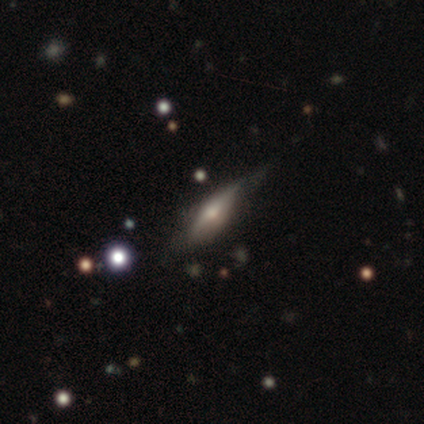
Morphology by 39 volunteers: Smooth or featured?
  - featured or disk: 51% *
  - smooth: 41%
  - star or artifact: 8%
Edge-on disk?
  - yes: 85% *
  - no: 15%
Edge-on bulge?
  - rounded: 76% *
  - boxy: 18%
  - none: 6%
Merging?
  - none: 67% *
  - minor disturbance: 33%
  - major disturbance: 0%
  - merger: 0%